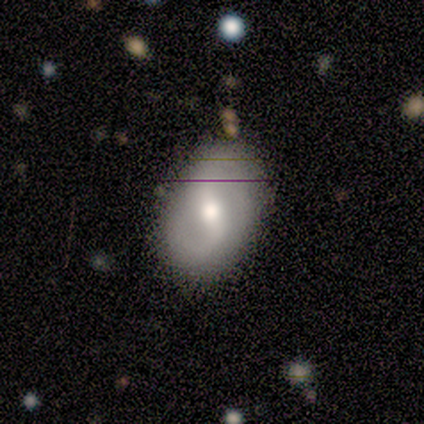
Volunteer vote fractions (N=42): A featured or disk galaxy (64%) with a weak bar (44%), 2 (89%) medium (42%, tied with loose) spiral arms (76%) and a moderate central bulge (60%). Merging: none (78%).